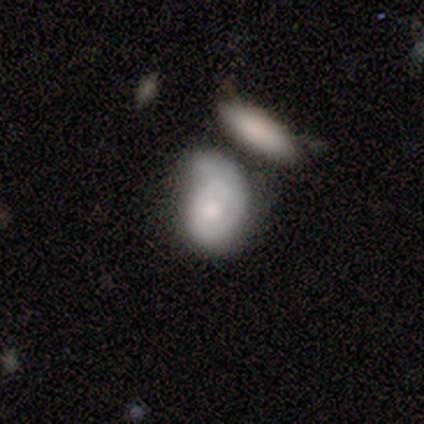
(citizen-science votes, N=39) smooth_or_featured: featured or disk (p=0.51) [alt: smooth p=0.41]
disk_edge_on: no (p=1.00)
bar: no (p=0.90) [alt: weak p=0.10]
has_spiral_arms: yes (p=0.60) [alt: no p=0.40]
spiral_winding: tight (p=0.58) [alt: medium p=0.42]
spiral_arm_count: 1 (p=0.75) [alt: 2 p=0.17]
bulge_size: moderate (p=0.65) [alt: small p=0.20]
merging: none (p=0.28) [tied with: minor disturbance p=0.28]